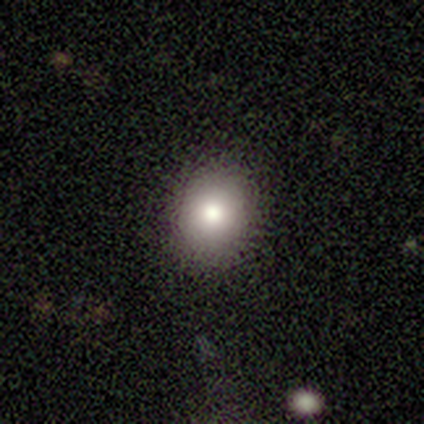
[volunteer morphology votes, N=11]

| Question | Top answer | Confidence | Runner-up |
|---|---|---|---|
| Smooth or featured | smooth | 73% | featured or disk (18%) |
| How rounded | round | 50% | tied: in between (50%) |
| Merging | none | 80% | minor disturbance (20%) |